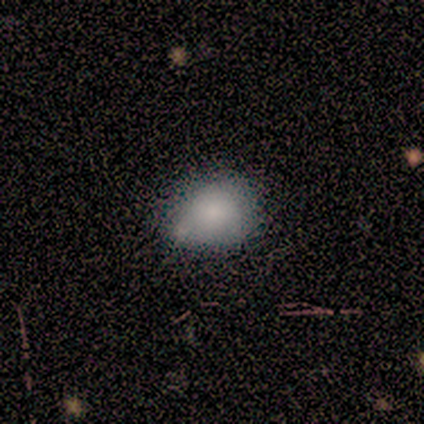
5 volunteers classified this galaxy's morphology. A smooth galaxy with no disk features (100%) that is in between round and cigar-shaped (60%).

Vote fractions:
- Smooth or featured? smooth: 100% / featured or disk: 0% / star or artifact: 0%
- How rounded? in between: 60% / round: 40% / cigar-shaped: 0%
- Merging? none: 40% / minor disturbance: 20% / major disturbance: 20% / merger: 20%